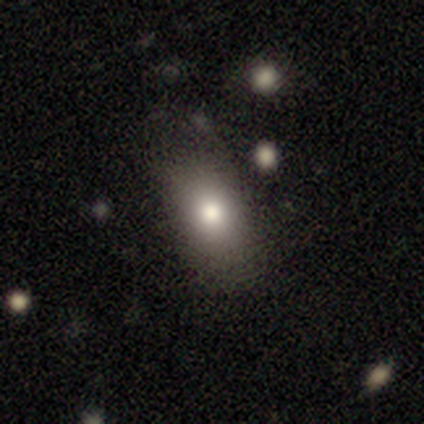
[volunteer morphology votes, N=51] Q: Smooth or featured?
A: smooth (78%); runner-up: star or artifact (14%)
Q: How rounded?
A: in between (90%); runner-up: round (5%)
Q: Merging?
A: none (80%); runner-up: minor disturbance (11%)